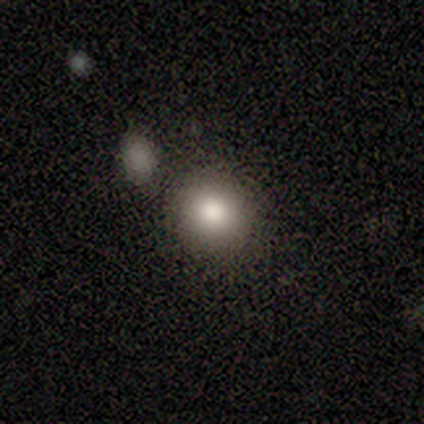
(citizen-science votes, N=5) Overall: smooth (100%). How rounded: round (100%). Merging: none (100%).